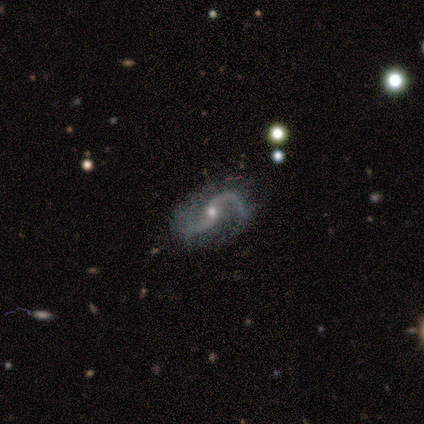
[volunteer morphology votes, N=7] Smooth or featured: featured or disk — 100%
Edge-on disk: no — 100%
Bar: no — 71% (strong — 14%)
Spiral arms: yes — 100%
Spiral winding: loose — 100%
Spiral arm count: 2 — 86% (1 — 14%)
Bulge size: small — 71% (moderate — 14%)
Merging: none — 86% (minor disturbance — 14%)